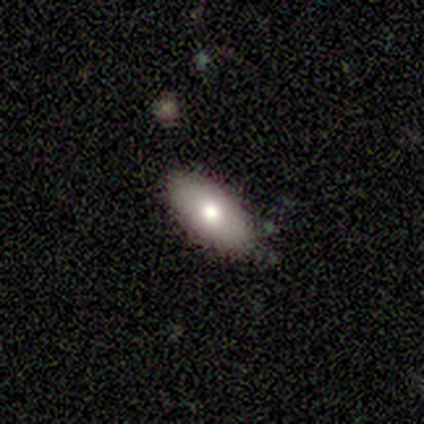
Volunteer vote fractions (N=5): smooth-or-featured: smooth: 60% | featured or disk: 40% | star or artifact: 0%
  how-rounded: in between: 100% | round: 0% | cigar-shaped: 0%
  merging: none: 80% | minor disturbance: 20% | major disturbance: 0% | merger: 0%